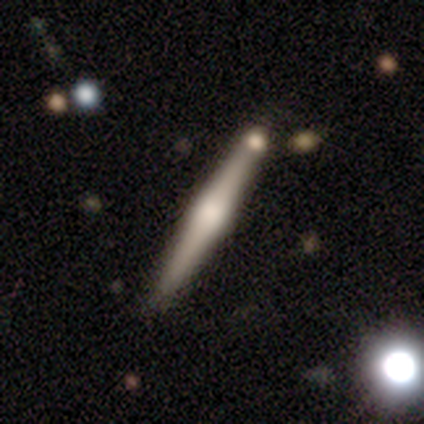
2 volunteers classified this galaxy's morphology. Q: Smooth or featured?
A: featured or disk (100%)
Q: Edge-on disk?
A: yes (100%)
Q: Edge-on bulge?
A: rounded (100%)
Q: Merging?
A: none (50%); tied with: major disturbance (50%)